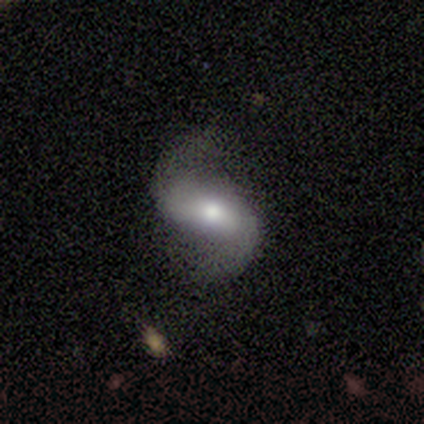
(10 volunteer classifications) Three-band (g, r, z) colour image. It shows a featured or disk galaxy (100%) with a strong bar (56%), 2 (100%) loose (71%) spiral arms (78%) and a moderate central bulge (56%). Merging: none (80%).